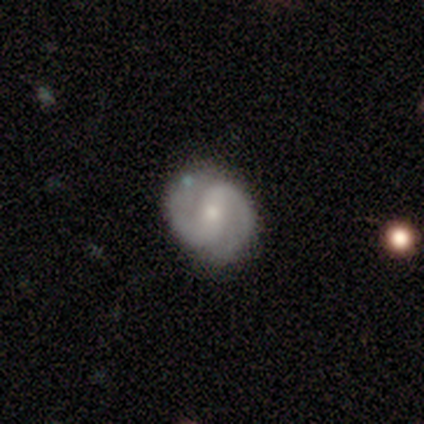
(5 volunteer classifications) featured or disk 80%, star or artifact 20%, smooth 0%. Down the decision tree: edge-on disk — no (100%); bar — no (50%); spiral arms — yes (100%); spiral arm count — 2 (100%); spiral winding — medium (75%); bulge size — moderate (50%, tied with small); merging — minor disturbance (75%).